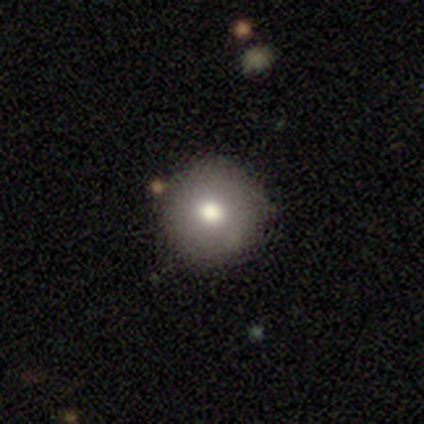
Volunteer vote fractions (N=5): A smooth galaxy with no disk features (100%) that is round (100%). Merging: none (100%).